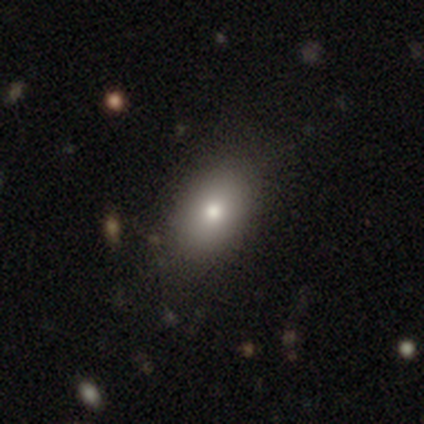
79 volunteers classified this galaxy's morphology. smooth 82%, star or artifact 11%, featured or disk 6%. Down the decision tree: how rounded — in between (88%); merging — none (50%).